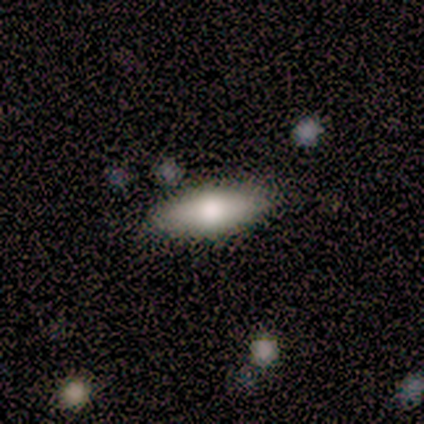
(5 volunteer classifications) This is clearly a smooth galaxy (100%). How rounded: clearly in between (80%). Merging: clearly none (100%).